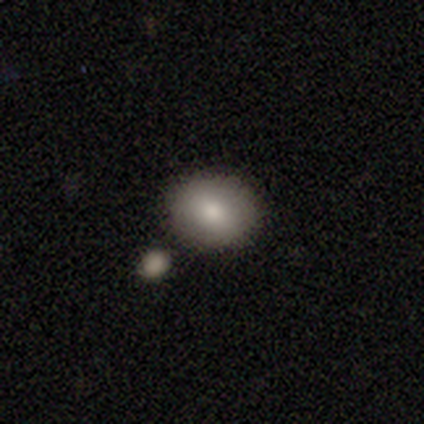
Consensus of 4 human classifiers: Smooth or featured?
  - smooth: 50% *
  - featured or disk: 25%
  - star or artifact: 25%
How rounded?
  - round: 100% *
  - in between: 0%
  - cigar-shaped: 0%
Merging?
  - none: 100% *
  - minor disturbance: 0%
  - major disturbance: 0%
  - merger: 0%